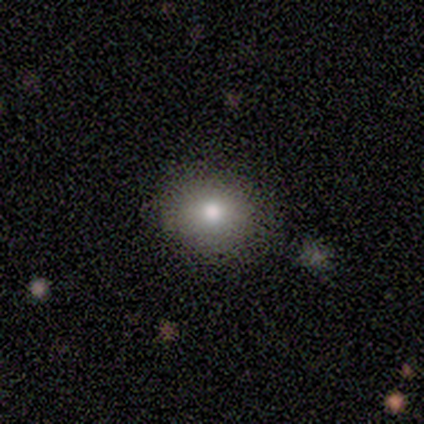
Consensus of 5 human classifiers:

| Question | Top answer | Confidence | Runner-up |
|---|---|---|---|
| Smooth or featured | smooth | 60% | star or artifact (40%) |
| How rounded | round | 100% | — |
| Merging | none | 67% | minor disturbance (33%) |